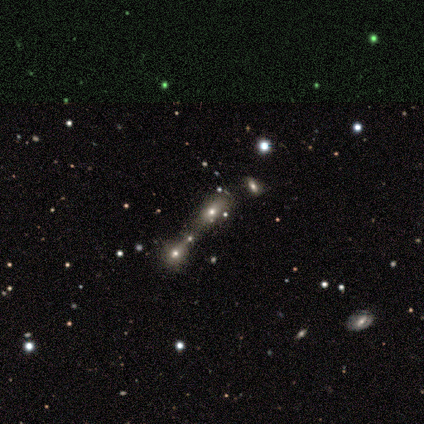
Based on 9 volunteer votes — star or artifact 56%, smooth 33%, featured or disk 11%.